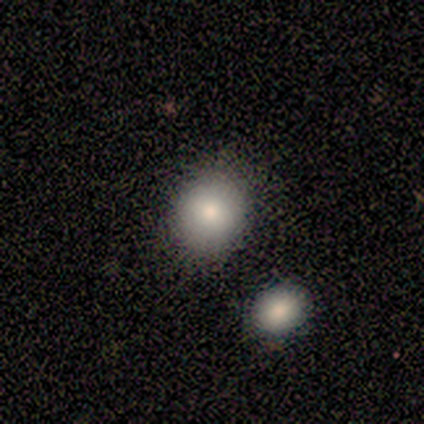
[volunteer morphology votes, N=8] type=smooth (75%); roundness=round (67%); merging=none (88%).